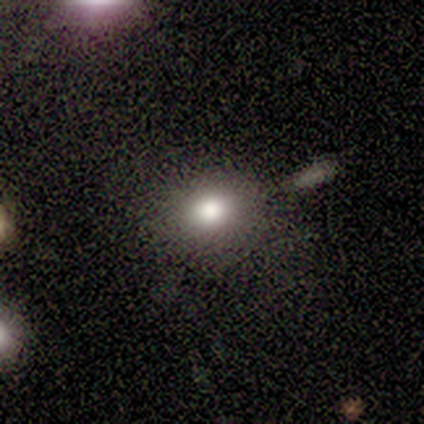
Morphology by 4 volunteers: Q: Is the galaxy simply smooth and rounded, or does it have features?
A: smooth — 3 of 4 (75%).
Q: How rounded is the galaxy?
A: round — 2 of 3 (67%).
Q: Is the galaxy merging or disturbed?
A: none — 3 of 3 (100%).